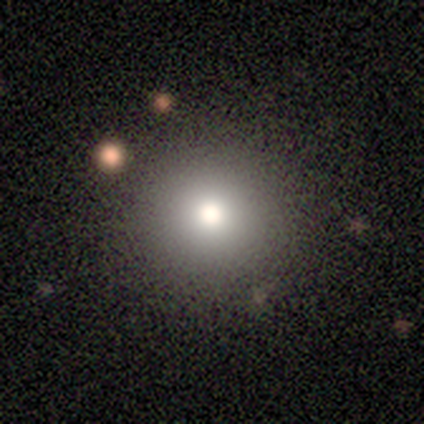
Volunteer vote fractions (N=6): smooth 83%, star or artifact 17%, featured or disk 0%. Down the decision tree: how rounded — round (100%); merging — none (80%).